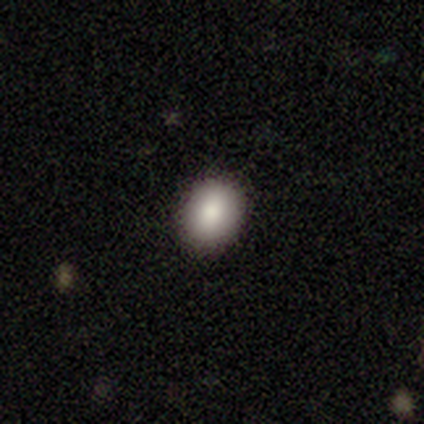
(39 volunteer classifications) Smooth or featured? smooth (87%)
How rounded? in between (59%)
Merging? none (94%)